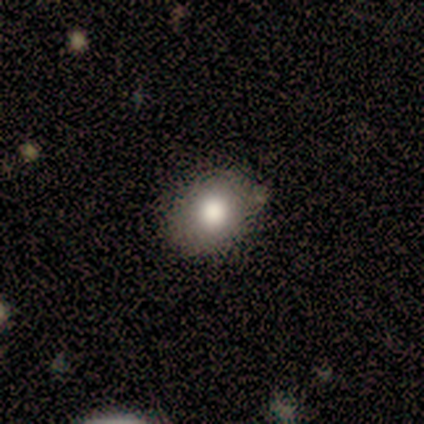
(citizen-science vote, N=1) Smooth or featured?
  - smooth: 100% *
  - featured or disk: 0%
  - star or artifact: 0%
How rounded?
  - in between: 100% *
  - round: 0%
  - cigar-shaped: 0%
Merging?
  - none: 100% *
  - minor disturbance: 0%
  - major disturbance: 0%
  - merger: 0%